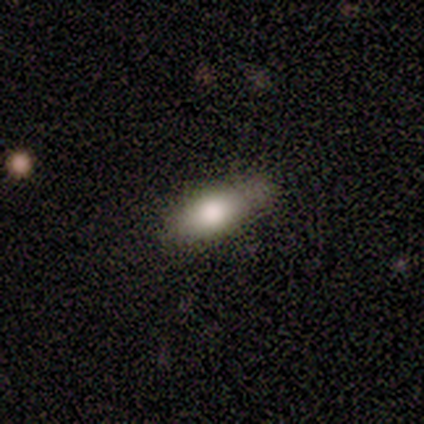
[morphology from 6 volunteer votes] Overall: smooth (83%). How rounded: in between (60%; cigar-shaped 40%). Merging: none (67%; minor disturbance 33%).